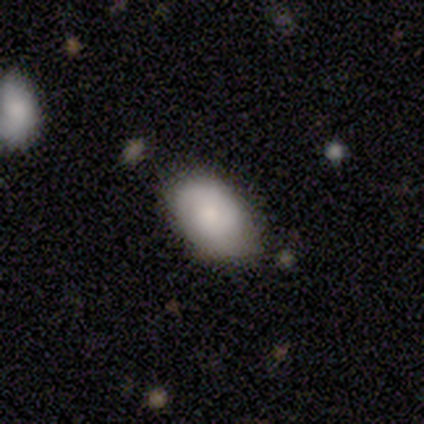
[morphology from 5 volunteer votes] A smooth galaxy with no disk features (80%) that is in between round and cigar-shaped (100%). Merging: none (80%).